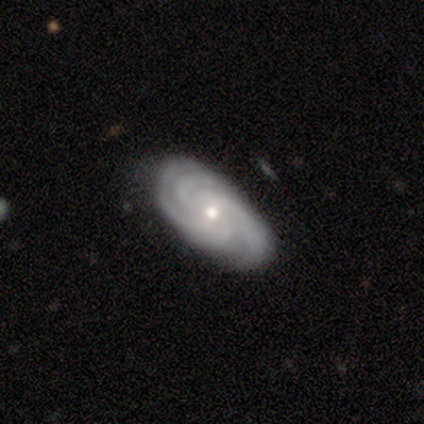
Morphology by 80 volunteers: A featured or disk galaxy (85%) with no bar (82%), 3 (64%) tight (76%) spiral arms (100%) and a small central bulge (58%).

Vote fractions:
- Smooth or featured? featured or disk: 85% / smooth: 11% / star or artifact: 4%
- Edge-on disk? no: 99% / yes: 1%
- Bar? no: 82% / weak: 15% / strong: 3%
- Spiral arms? yes: 100% / no: 0%
- Spiral winding? tight: 76% / medium: 21% / loose: 3%
- Spiral arm count? 3: 64% / 4: 19% / can't tell: 10% / 2: 4% / more than 4: 1% / 1: 0%
- Bulge size? small: 58% / moderate: 39% / large: 3% / dominant: 0% / none: 0%
- Merging? none: 43% / minor disturbance: 6% / major disturbance: 1% / merger: 0%